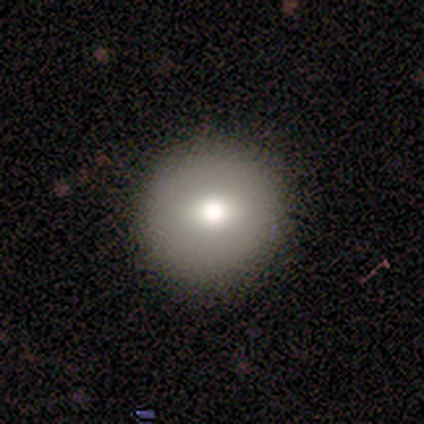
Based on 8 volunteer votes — Overall: smooth (100%). How rounded: round (100%). Merging: none (75%).